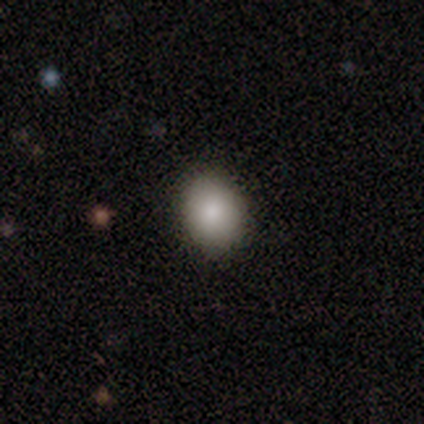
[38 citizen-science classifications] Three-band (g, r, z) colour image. It shows a smooth galaxy with no disk features (87%) that is round (55%). Merging: none (97%).